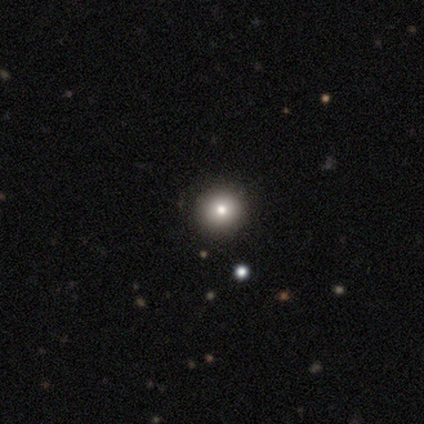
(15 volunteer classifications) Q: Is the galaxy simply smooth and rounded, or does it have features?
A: smooth — 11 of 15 (73%).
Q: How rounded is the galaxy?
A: round — 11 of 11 (100%).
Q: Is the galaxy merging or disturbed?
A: none — 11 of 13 (85%).